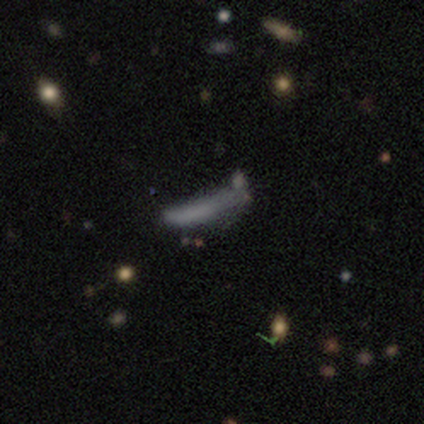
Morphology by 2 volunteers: smooth-or-featured: smooth: 100% | featured or disk: 0% | star or artifact: 0%
  how-rounded: in between: 50% (tied) | cigar-shaped: 50% (tied) | round: 0%
  merging: none: 50% (tied) | major disturbance: 50% (tied) | minor disturbance: 0% | merger: 0%